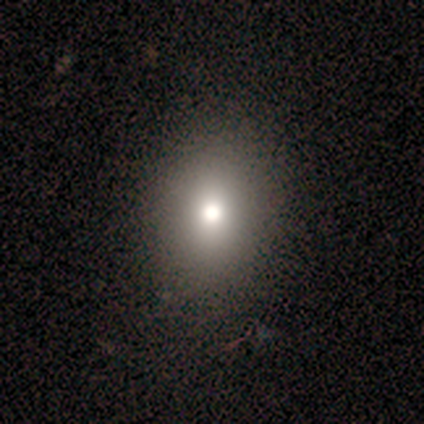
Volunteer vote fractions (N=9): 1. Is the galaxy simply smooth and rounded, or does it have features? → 89% smooth, 11% featured or disk, 0% star or artifact.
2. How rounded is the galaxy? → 75% in between, 25% round, 0% cigar-shaped.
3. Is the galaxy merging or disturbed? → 78% none, 22% minor disturbance, 0% major disturbance, 0% merger.